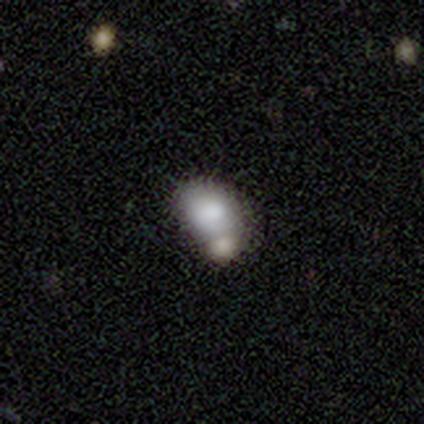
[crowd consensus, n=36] Smooth or featured? smooth (75%)
How rounded? in between (70%)
Merging? merger (72%)